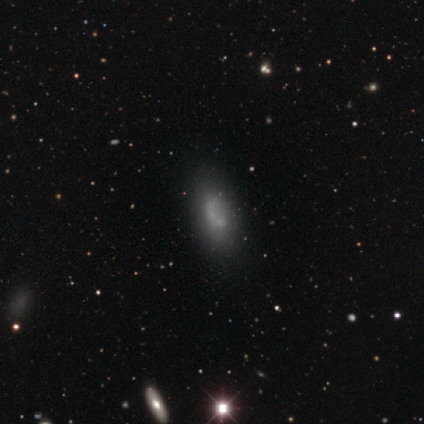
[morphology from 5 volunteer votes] This appears to be a smooth galaxy with no disk features (80%) that is in between round and cigar-shaped (100%). Merging: none (50%).